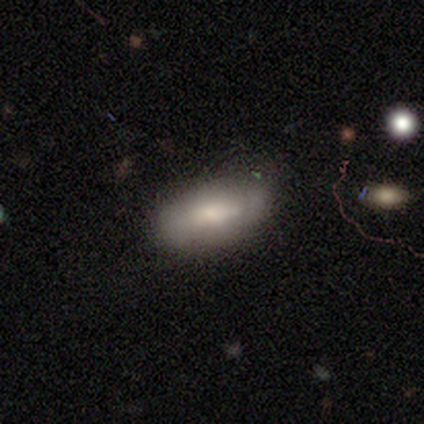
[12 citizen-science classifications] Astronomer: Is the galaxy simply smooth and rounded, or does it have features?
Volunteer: smooth — 58% (runner-up: featured or disk, 42%).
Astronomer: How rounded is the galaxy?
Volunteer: in between — 100%.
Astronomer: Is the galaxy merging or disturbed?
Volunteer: none — 58% (runner-up: minor disturbance, 42%).